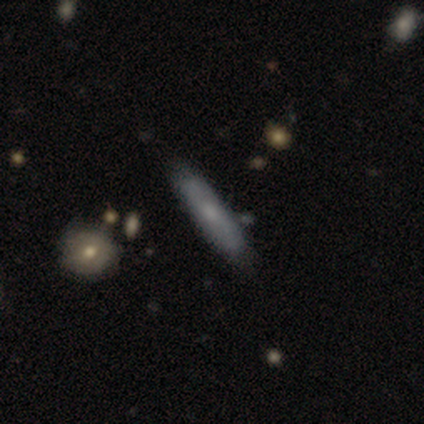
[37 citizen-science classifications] smooth-or-featured: smooth: 65% | featured or disk: 30% | star or artifact: 5%
  how-rounded: cigar-shaped: 83% | in between: 17% | round: 0%
  merging: none: 91% | minor disturbance: 9% | major disturbance: 0% | merger: 0%